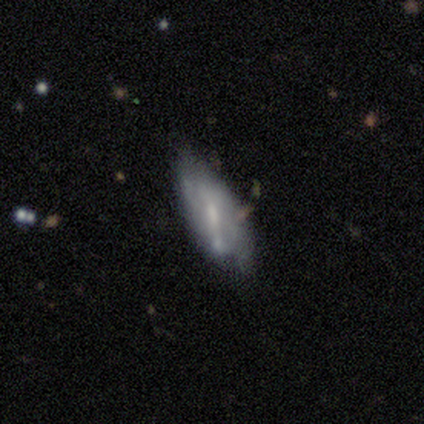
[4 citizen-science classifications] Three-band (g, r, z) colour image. It shows a smooth galaxy with no disk features (75%) that is in between round and cigar-shaped (100%). Merging: none (50%, tied with minor disturbance).